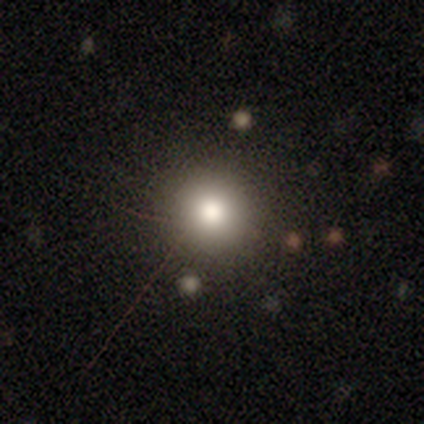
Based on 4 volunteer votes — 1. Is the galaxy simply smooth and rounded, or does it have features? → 50% smooth, 25% featured or disk, 25% star or artifact.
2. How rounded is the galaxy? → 100% round, 0% in between, 0% cigar-shaped.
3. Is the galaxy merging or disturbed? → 100% none, 0% minor disturbance, 0% major disturbance, 0% merger.